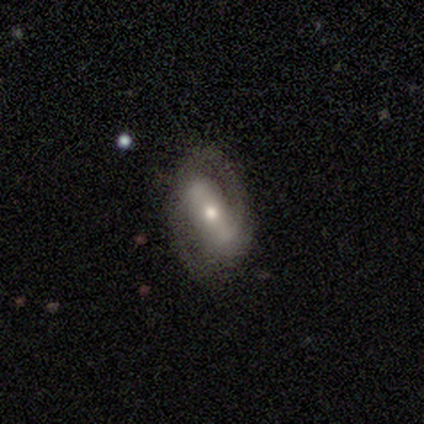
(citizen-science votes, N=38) Smooth or featured? featured or disk (89%)
Edge-on disk? no (97%)
Bar? strong (70%)
Spiral arms? yes (88%)
Spiral winding? medium (45%)
Spiral arm count? 2 (93%)
Bulge size? small (55%)
Merging? none (83%)